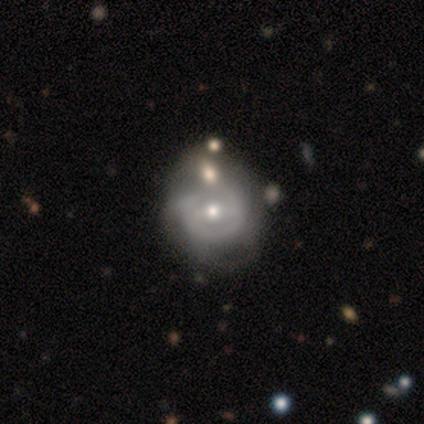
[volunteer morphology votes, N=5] Smooth or featured? 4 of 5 (80%) said featured or disk. Edge-on disk? 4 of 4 (100%) said no. Bar? 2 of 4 (50%) said weak. Spiral arms? 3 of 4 (75%) said no. Bulge size? 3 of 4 (75%) said moderate. Merging? 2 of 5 (40%, tied with minor disturbance) said none.